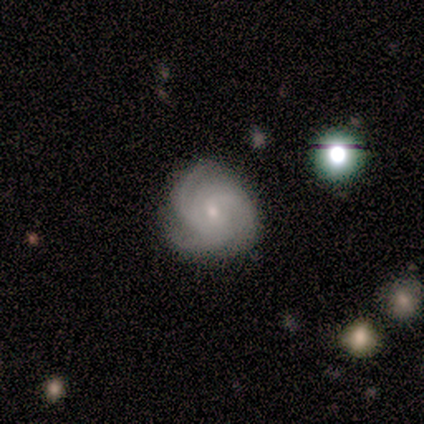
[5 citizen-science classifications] This appears to be a featured or disk galaxy (100%) with no bar (60%), 3 (80%) tight (60%) spiral arms (100%) and a small central bulge (60%). Merging: none (100%).